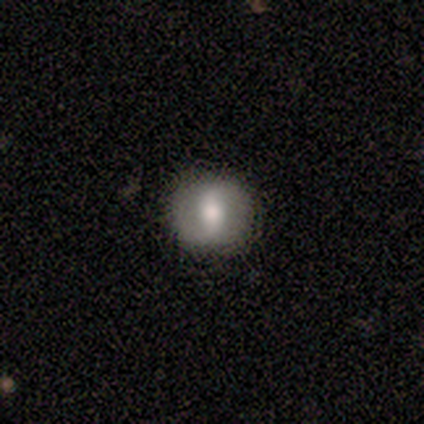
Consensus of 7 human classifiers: Smooth or featured: featured or disk — 57% (smooth — 29%)
Edge-on disk: no — 100%
Bar: weak — 50% (strong — 25%)
Spiral arms: yes — 100%
Spiral winding: tight — 75% (loose — 25%)
Spiral arm count: 2 — 50% (tied with can't tell — 50%)
Bulge size: moderate — 75% (small — 25%)
Merging: none — 100%